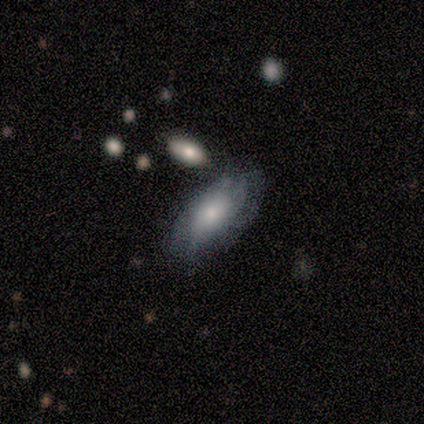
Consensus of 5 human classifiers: Volunteers were most divided on "merging" (2-way tie): none: 40%, minor disturbance: 40%, major disturbance: 20%, merger: 0%. More confident: how rounded — in between (100%); smooth or featured — smooth (80%).